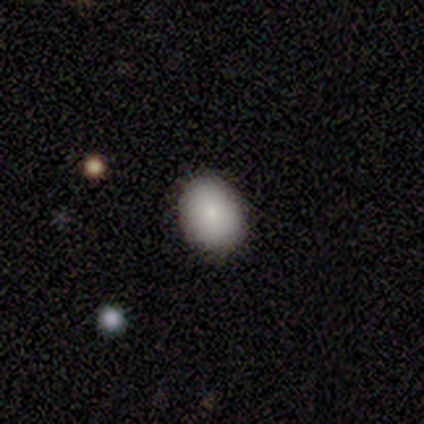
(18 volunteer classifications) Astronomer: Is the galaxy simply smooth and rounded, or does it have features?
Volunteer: smooth — 72%.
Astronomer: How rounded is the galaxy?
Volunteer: in between — 69%.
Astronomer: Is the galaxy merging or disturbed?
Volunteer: none — 81%.